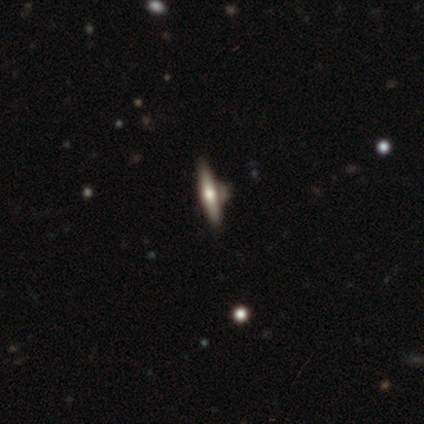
Smooth or featured: smooth — 50% (tied with star or artifact — 50%)
How rounded: cigar-shaped — 100%
Merging: none — 100%